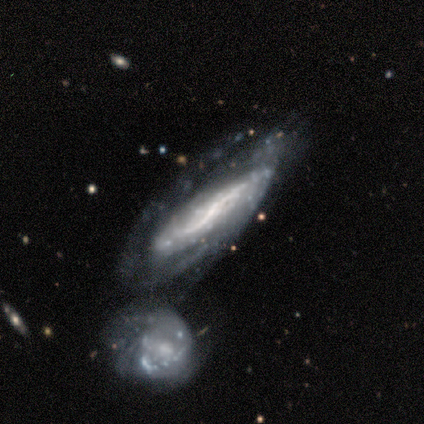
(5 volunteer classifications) Smooth or featured?
  - featured or disk: 100% *
  - smooth: 0%
  - star or artifact: 0%
Edge-on disk?
  - no: 80% *
  - yes: 20%
Bar?
  - strong: 50% * (tied)
  - weak: 50% * (tied)
  - no: 0%
Spiral arms?
  - yes: 100% *
  - no: 0%
Spiral winding?
  - loose: 50% *
  - tight: 25%
  - medium: 25%
Spiral arm count?
  - 2: 100% *
  - 1: 0%
  - 3: 0%
  - 4: 0%
  - more than 4: 0%
  - can't tell: 0%
Bulge size?
  - large: 50% *
  - small: 25%
  - none: 25%
  - dominant: 0%
  - moderate: 0%
Merging?
  - none: 40% * (tied)
  - minor disturbance: 40% * (tied)
  - merger: 20%
  - major disturbance: 0%